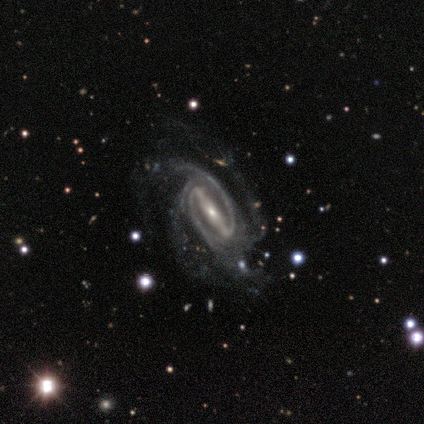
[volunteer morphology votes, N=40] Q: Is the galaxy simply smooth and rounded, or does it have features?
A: featured or disk — 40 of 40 (100%).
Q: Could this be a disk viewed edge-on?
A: no — 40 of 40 (100%).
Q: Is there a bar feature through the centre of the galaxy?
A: strong — 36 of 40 (90%).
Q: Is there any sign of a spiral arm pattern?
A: yes — 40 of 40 (100%).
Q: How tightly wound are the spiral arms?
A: tight — 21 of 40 (52%).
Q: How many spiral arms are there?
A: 4 — 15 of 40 (38%).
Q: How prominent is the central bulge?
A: small — 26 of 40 (65%).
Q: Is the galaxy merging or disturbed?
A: none — 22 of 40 (55%).